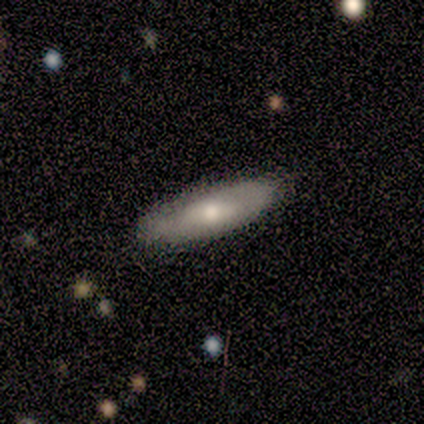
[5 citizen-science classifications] Q: Smooth or featured?
A: smooth (60%); runner-up: featured or disk (40%)
Q: How rounded?
A: in between (67%); runner-up: cigar-shaped (33%)
Q: Merging?
A: none (100%)